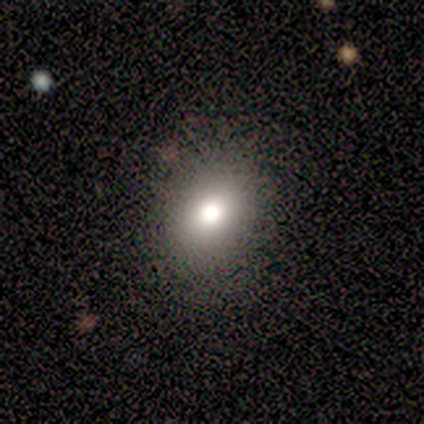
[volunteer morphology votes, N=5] A smooth galaxy with no disk features (60%) that is round (67%). Merging: none (100%).